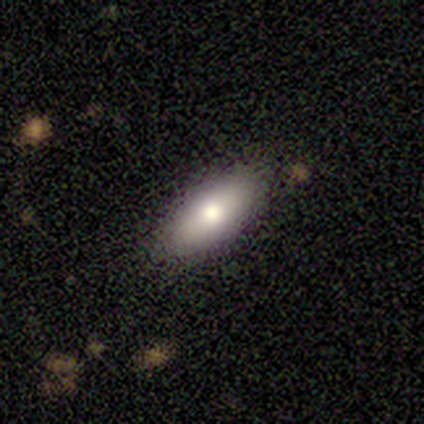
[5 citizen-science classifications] smooth_or_featured: smooth (p=0.80) [alt: featured or disk p=0.20]
how_rounded: in between (p=0.75) [alt: cigar-shaped p=0.25]
merging: none (p=1.00)